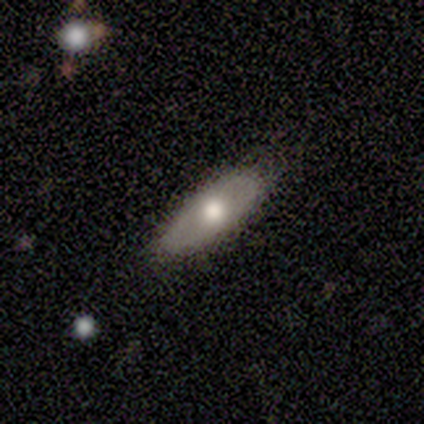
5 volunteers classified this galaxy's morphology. This is likely a smooth galaxy (60%). How rounded: likely cigar-shaped (67%). Merging: likely none (60%).